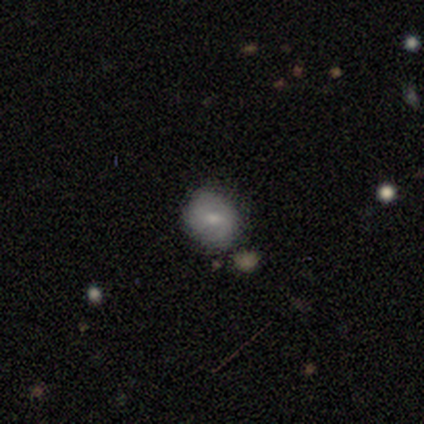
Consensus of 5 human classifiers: Smooth or featured?
  - smooth: 60% *
  - star or artifact: 40%
  - featured or disk: 0%
How rounded?
  - round: 100% *
  - in between: 0%
  - cigar-shaped: 0%
Merging?
  - none: 67% *
  - merger: 33%
  - minor disturbance: 0%
  - major disturbance: 0%